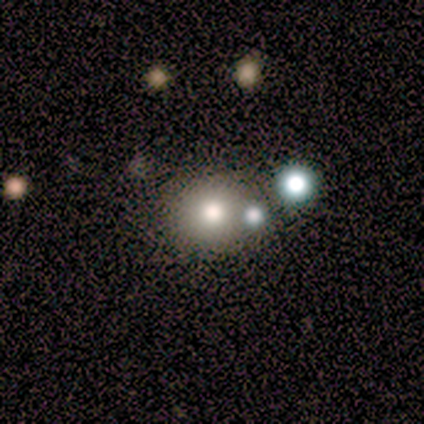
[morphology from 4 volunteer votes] Smooth or featured? 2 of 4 (50%, tied with star or artifact) said smooth. How rounded? 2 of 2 (100%) said round. Merging? 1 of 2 (50%, tied with major disturbance) said none.